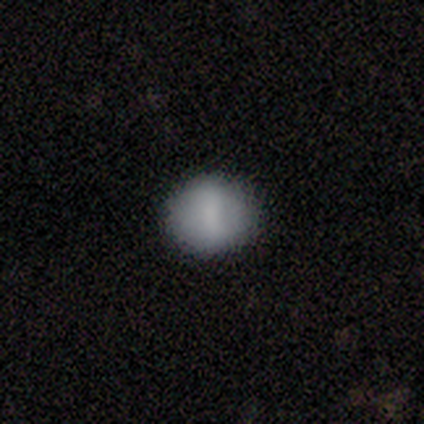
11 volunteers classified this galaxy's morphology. Volunteers were most divided on "how rounded": round: 62%, in between: 38%, cigar-shaped: 0%. More confident: merging — none (91%); smooth or featured — smooth (73%).